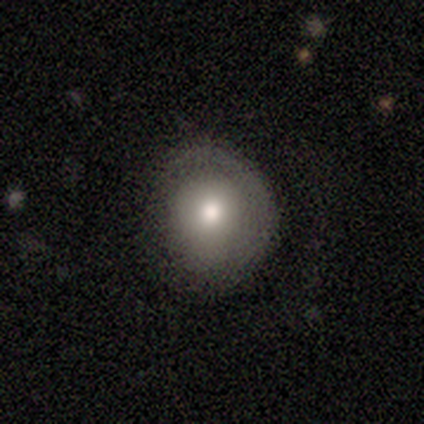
Smooth or featured: smooth — 78% (featured or disk — 22%)
How rounded: round — 86% (in between — 14%)
Merging: none — 89% (minor disturbance — 11%)